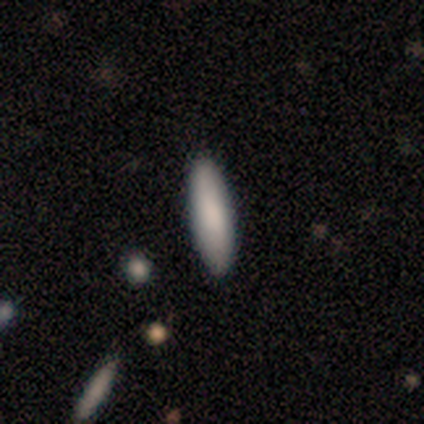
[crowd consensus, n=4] smooth-or-featured: smooth: 100% | featured or disk: 0% | star or artifact: 0%
  how-rounded: in between: 50% (tied) | cigar-shaped: 50% (tied) | round: 0%
  merging: none: 100% | minor disturbance: 0% | major disturbance: 0% | merger: 0%